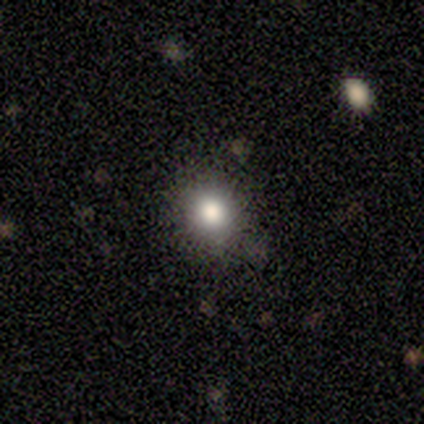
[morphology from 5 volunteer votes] Smooth or featured?
  - smooth: 80% *
  - featured or disk: 20%
  - star or artifact: 0%
How rounded?
  - round: 100% *
  - in between: 0%
  - cigar-shaped: 0%
Merging?
  - none: 100% *
  - minor disturbance: 0%
  - major disturbance: 0%
  - merger: 0%